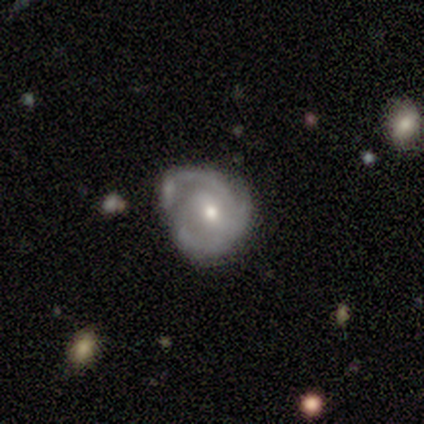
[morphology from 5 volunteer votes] This is clearly a featured or disk galaxy (100%). It is clearly not viewed edge-on (100%). Bar: clearly no (100%). Spiral arm pattern: likely yes (60%). Spiral arm count: likely 3 (67%). Spiral winding: likely tight (67%). Central bulge: clearly small (80%). Merging: likely none (60%).